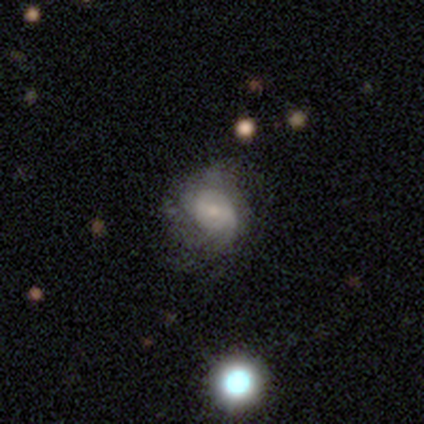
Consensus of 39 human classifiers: A featured or disk galaxy (74%) with no bar (59%), tight (52%) spiral arms (79%) and a small central bulge (62%). Merging: none (35%).